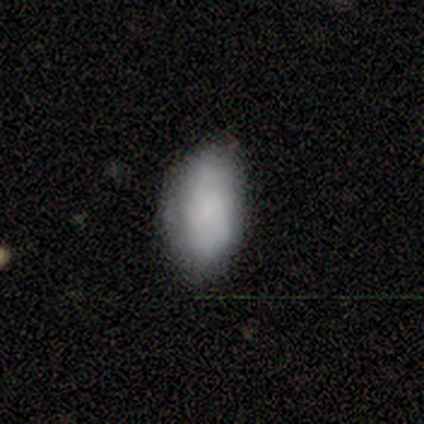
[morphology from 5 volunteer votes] Volunteers were most divided on "spiral winding" (2-way tie): tight: 50%, loose: 50%, medium: 0%; "spiral arm count" (2-way tie): 1: 50%, can't tell: 50%, 2: 0%, 3: 0%, 4: 0%, more than 4: 0%. More confident: edge-on disk — no (100%); bar — no (100%); spiral arms — yes (67%); bulge size — small (67%); smooth or featured — featured or disk (60%); merging — none (60%).